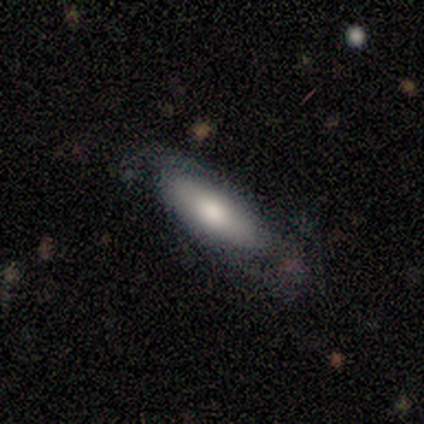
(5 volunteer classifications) smooth-or-featured: smooth: 100% | featured or disk: 0% | star or artifact: 0%
  how-rounded: in between: 60% | cigar-shaped: 40% | round: 0%
  merging: none: 100% | minor disturbance: 0% | major disturbance: 0% | merger: 0%